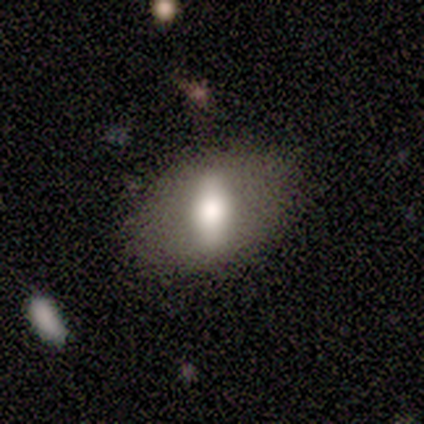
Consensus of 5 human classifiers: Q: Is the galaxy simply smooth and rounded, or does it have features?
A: featured or disk — 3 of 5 (60%).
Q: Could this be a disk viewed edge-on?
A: no — 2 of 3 (67%).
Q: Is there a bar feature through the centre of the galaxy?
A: strong — 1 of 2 (50%, tied with weak).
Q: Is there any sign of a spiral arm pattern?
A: no — 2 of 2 (100%).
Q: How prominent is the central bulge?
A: large — 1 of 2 (50%, tied with moderate).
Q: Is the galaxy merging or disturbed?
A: minor disturbance — 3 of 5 (60%).